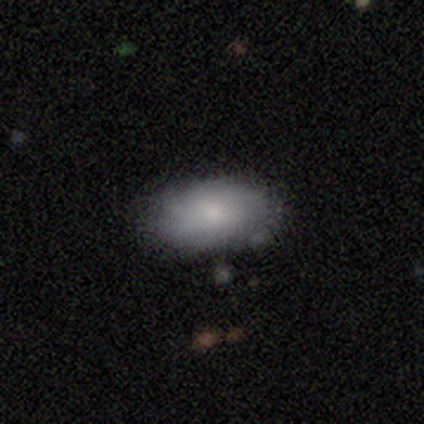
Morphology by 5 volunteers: A smooth galaxy with no disk features (60%) that is in between round and cigar-shaped (100%).

Vote fractions:
- Smooth or featured? smooth: 60% / featured or disk: 40% / star or artifact: 0%
- How rounded? in between: 100% / round: 0% / cigar-shaped: 0%
- Merging? none: 60% / minor disturbance: 40% / major disturbance: 0% / merger: 0%